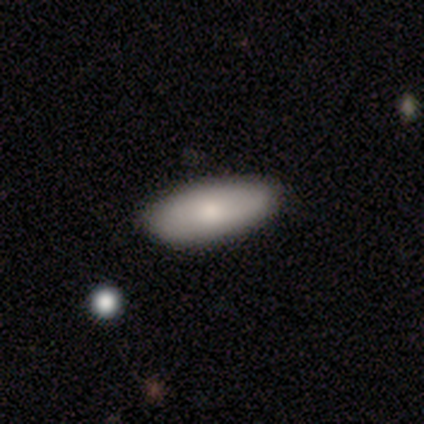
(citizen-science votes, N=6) Smooth or featured?
  - smooth: 67% *
  - featured or disk: 33%
  - star or artifact: 0%
How rounded?
  - in between: 100% *
  - round: 0%
  - cigar-shaped: 0%
Merging?
  - none: 83% *
  - minor disturbance: 17%
  - major disturbance: 0%
  - merger: 0%